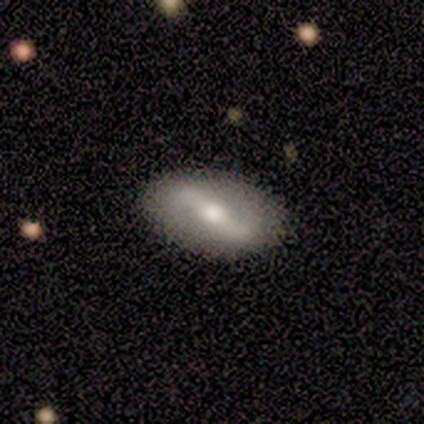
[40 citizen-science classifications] Smooth or featured: featured or disk — 68% (smooth — 25%)
Edge-on disk: no — 96% (yes — 4%)
Bar: strong — 65% (weak — 35%)
Spiral arms: yes — 69% (no — 31%)
Spiral winding: loose — 61% (medium — 28%)
Spiral arm count: 2 — 94% (1 — 6%)
Bulge size: moderate — 85% (large — 8%)
Merging: none — 92% (minor disturbance — 8%)